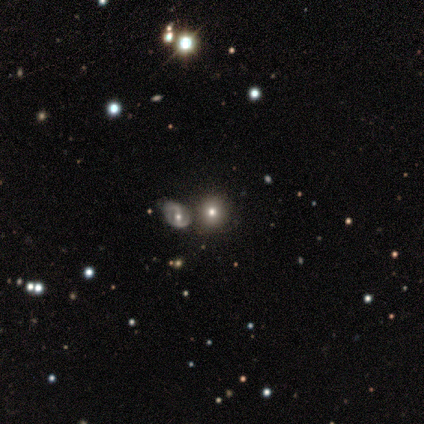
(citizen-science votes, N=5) Smooth or featured: smooth — 60% (featured or disk — 20%)
How rounded: round — 100%
Merging: none — 75% (minor disturbance — 25%)